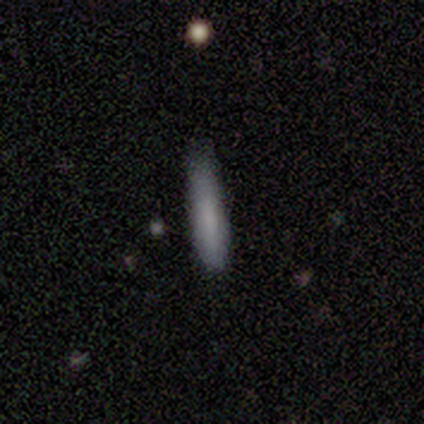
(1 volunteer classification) Smooth or featured? 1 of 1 (100%) said smooth. How rounded? 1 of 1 (100%) said cigar-shaped. Merging? 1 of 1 (100%) said none.